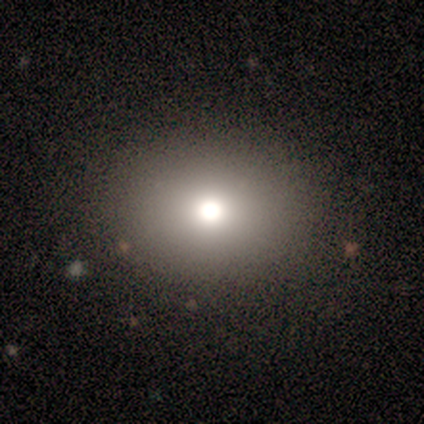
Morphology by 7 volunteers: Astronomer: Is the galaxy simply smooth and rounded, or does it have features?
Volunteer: smooth — 71%.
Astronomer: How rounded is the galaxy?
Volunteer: in between — 80%.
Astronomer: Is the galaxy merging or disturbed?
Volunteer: none — 80%.